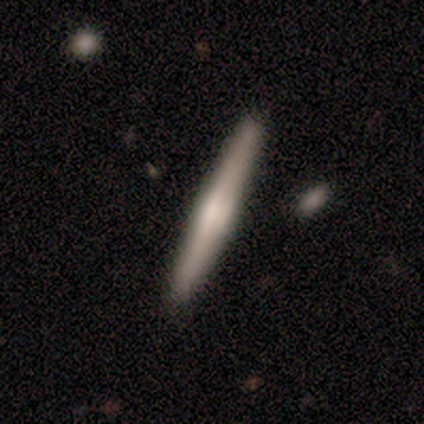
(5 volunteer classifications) Overall: smooth (60%; featured or disk 40%). How rounded: cigar-shaped (100%). Merging: none (80%).